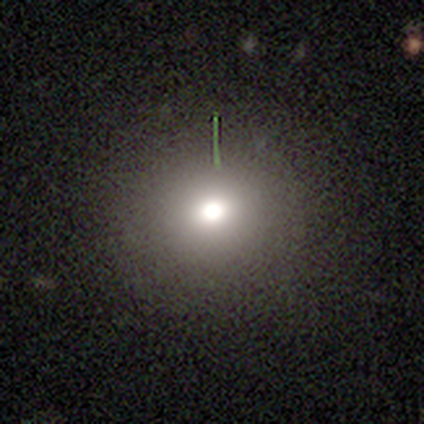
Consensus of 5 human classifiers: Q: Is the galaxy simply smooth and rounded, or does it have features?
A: star or artifact — 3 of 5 (60%).